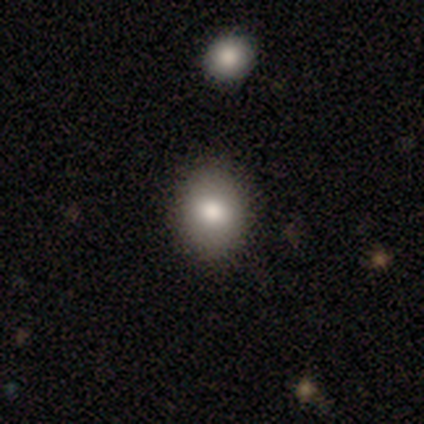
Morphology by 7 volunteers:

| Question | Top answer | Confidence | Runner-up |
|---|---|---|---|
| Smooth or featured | smooth | 57% | featured or disk (29%) |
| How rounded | in between | 75% | round (25%) |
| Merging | none | 83% | minor disturbance (17%) |